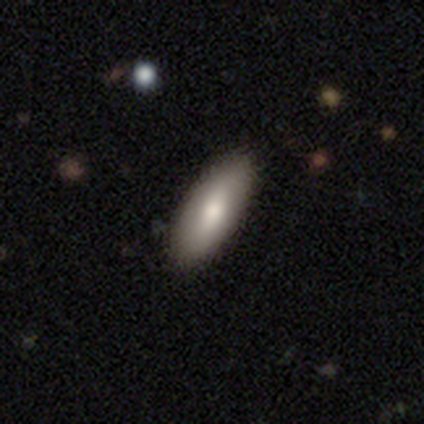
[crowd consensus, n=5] smooth-or-featured: smooth: 100% | featured or disk: 0% | star or artifact: 0%
  how-rounded: in between: 80% | cigar-shaped: 20% | round: 0%
  merging: none: 100% | minor disturbance: 0% | major disturbance: 0% | merger: 0%